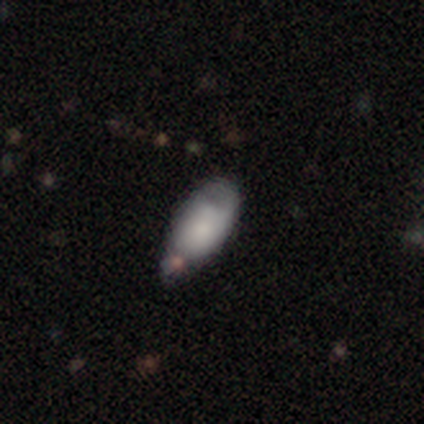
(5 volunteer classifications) Smooth or featured: featured or disk — 40% (tied with star or artifact — 40%)
Edge-on disk: no — 100%
Bar: no — 100%
Spiral arms: no — 100%
Bulge size: small — 50% (tied with none — 50%)
Merging: minor disturbance — 67% (none — 33%)